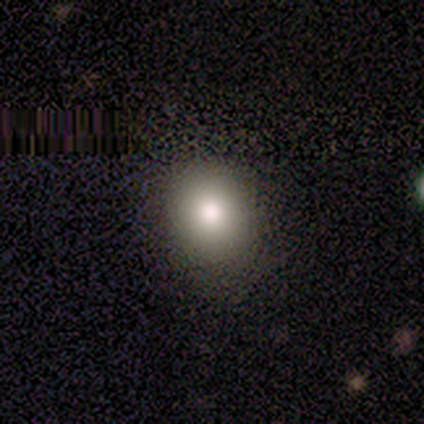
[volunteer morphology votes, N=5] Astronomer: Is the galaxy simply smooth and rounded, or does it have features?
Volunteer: smooth — 80%.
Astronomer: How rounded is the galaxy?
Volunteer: round — 50%, tied with in between at 50%.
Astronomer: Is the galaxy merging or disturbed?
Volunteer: none — 100%.